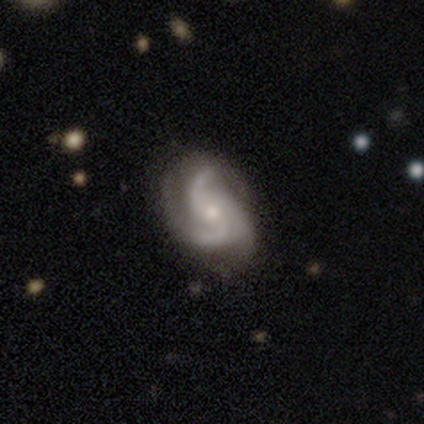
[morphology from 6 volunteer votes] This is clearly a featured or disk galaxy (100%). It is clearly not viewed edge-on (100%). Bar: likely no (67%). Spiral arm pattern: clearly yes (100%). Spiral arm count: clearly 3 (83%). Spiral winding: possibly medium (50%, tied with loose). Central bulge: clearly small (100%). Merging: likely minor disturbance (67%).